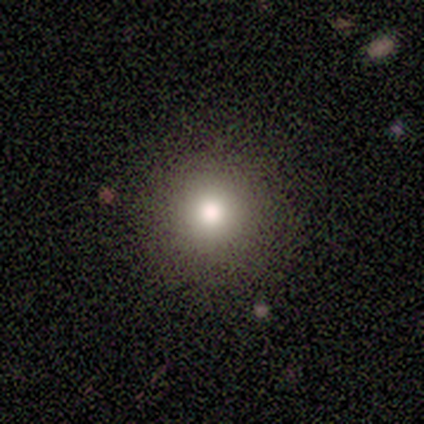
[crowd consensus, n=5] Volunteers were most divided on "smooth or featured": smooth: 60%, featured or disk: 40%, star or artifact: 0%. More confident: how rounded — round (100%); merging — none (100%).